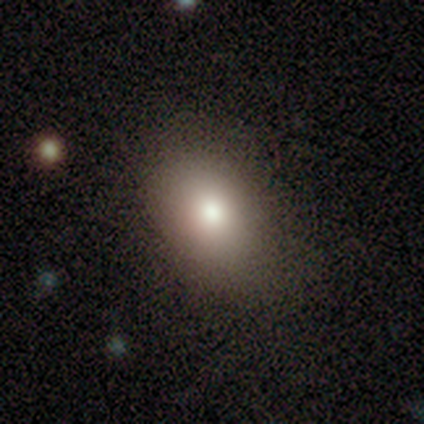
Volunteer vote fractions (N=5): This appears to be a smooth galaxy with no disk features (60%) that is in between round and cigar-shaped (67%). Merging: none (100%).